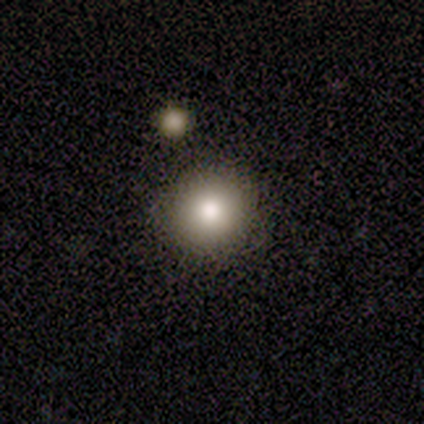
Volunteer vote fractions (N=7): This is clearly a smooth galaxy (86%). How rounded: clearly round (83%). Merging: clearly none (83%).